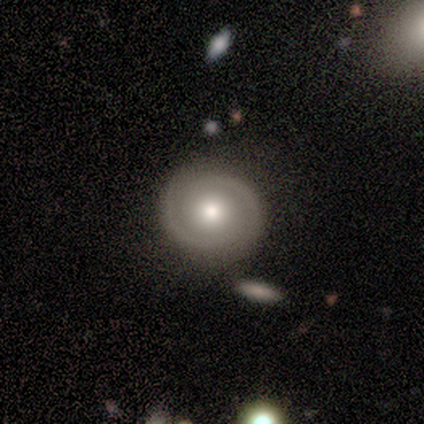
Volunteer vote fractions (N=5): Q: Smooth or featured?
A: featured or disk (60%); runner-up: smooth (40%)
Q: Edge-on disk?
A: no (100%)
Q: Bar?
A: no (100%)
Q: Spiral arms?
A: yes (100%)
Q: Spiral winding?
A: tight (67%); runner-up: medium (33%)
Q: Spiral arm count?
A: 2 (100%)
Q: Bulge size?
A: moderate (67%); runner-up: large (33%)
Q: Merging?
A: none (60%); runner-up: minor disturbance (20%)